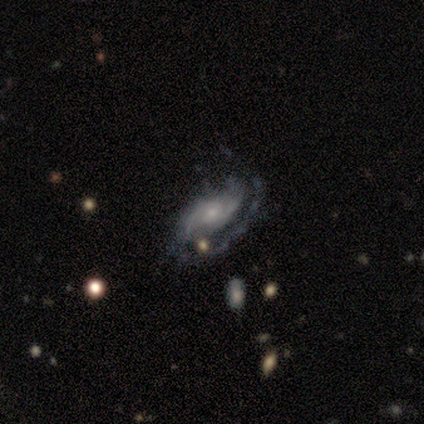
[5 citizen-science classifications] Q: Smooth or featured?
A: featured or disk (100%)
Q: Edge-on disk?
A: no (100%)
Q: Bar?
A: no (80%); runner-up: weak (20%)
Q: Spiral arms?
A: yes (100%)
Q: Spiral winding?
A: tight (40%); tied with: medium (40%)
Q: Spiral arm count?
A: can't tell (60%); runner-up: 1 (20%)
Q: Bulge size?
A: small (100%)
Q: Merging?
A: none (80%); runner-up: minor disturbance (20%)